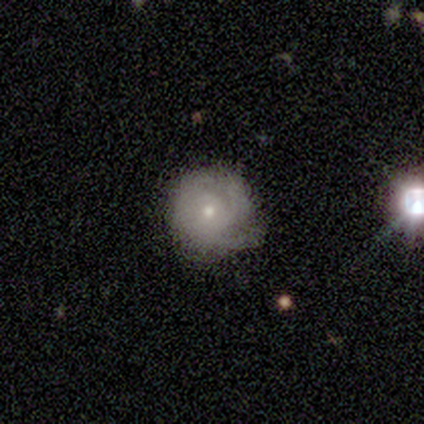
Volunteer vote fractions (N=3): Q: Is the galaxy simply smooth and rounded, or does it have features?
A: smooth — 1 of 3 (33%, tied with featured or disk and star or artifact).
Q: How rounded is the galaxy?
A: round — 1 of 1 (100%).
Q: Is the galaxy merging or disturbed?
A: none — 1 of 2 (50%, tied with minor disturbance).